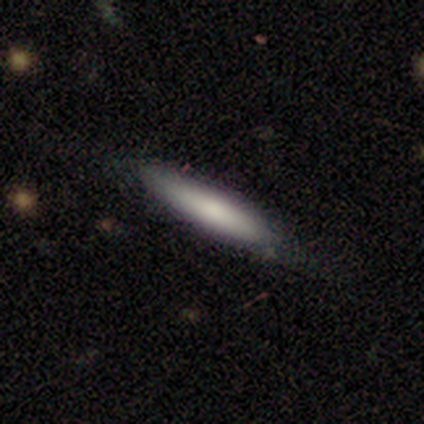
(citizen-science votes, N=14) Q: Smooth or featured?
A: smooth (86%); runner-up: featured or disk (14%)
Q: How rounded?
A: cigar-shaped (92%); runner-up: in between (8%)
Q: Merging?
A: none (79%); runner-up: minor disturbance (21%)